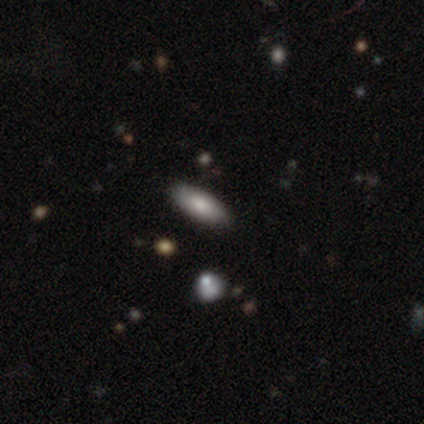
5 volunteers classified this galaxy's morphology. Smooth or featured? 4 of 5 (80%) said smooth. How rounded? 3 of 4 (75%) said in between. Merging? 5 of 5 (100%) said none.